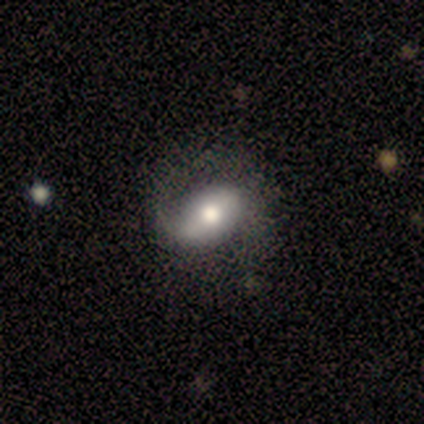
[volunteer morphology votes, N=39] featured or disk 69%, smooth 26%, star or artifact 5%. Down the decision tree: edge-on disk — no (100%); bar — strong (37%); spiral arms — yes (81%); spiral arm count — 1 (68%); spiral winding — loose (59%); bulge size — moderate (56%); merging — none (68%).